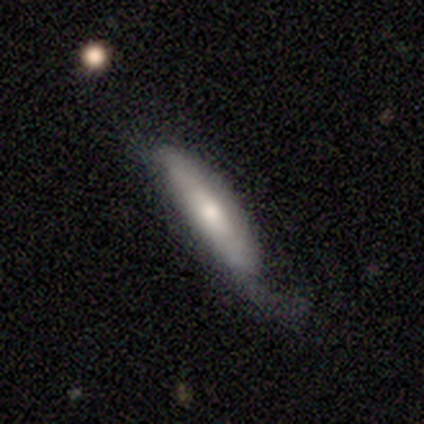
Q: Smooth or featured?
A: smooth (80%); runner-up: featured or disk (20%)
Q: How rounded?
A: in between (50%); tied with: cigar-shaped (50%)
Q: Merging?
A: minor disturbance (40%); tied with: major disturbance (40%)